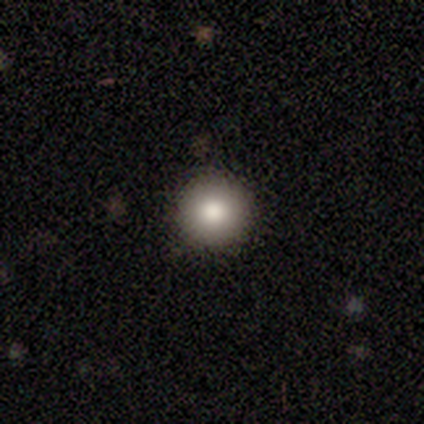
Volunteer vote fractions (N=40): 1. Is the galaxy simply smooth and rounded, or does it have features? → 78% smooth, 15% featured or disk, 8% star or artifact.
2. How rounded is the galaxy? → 97% round, 3% in between, 0% cigar-shaped.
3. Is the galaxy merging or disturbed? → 95% none, 3% minor disturbance, 3% major disturbance, 0% merger.